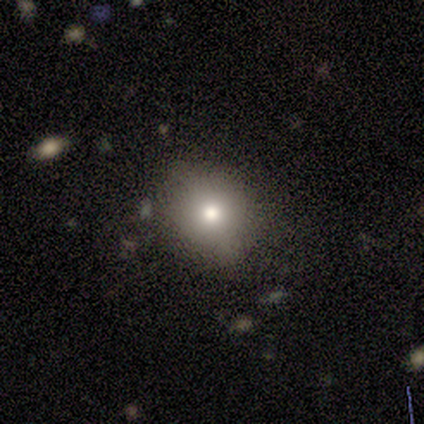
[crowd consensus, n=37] smooth-or-featured: smooth: 70% | star or artifact: 16% | featured or disk: 14%
  how-rounded: round: 88% | in between: 12% | cigar-shaped: 0%
  merging: none: 84% | minor disturbance: 10% | major disturbance: 3% | merger: 3%